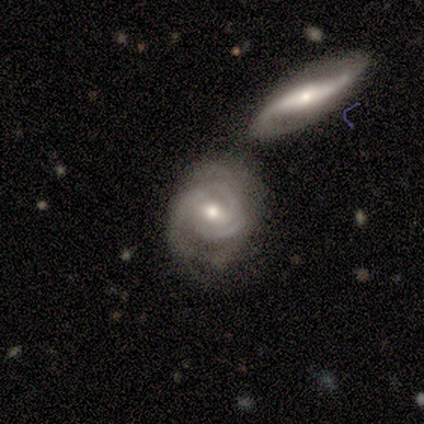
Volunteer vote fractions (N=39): Morphology: type=featured or disk (85%); edge-on=no (85%); bar=no (61%); spiral arms=yes (96%); winding=tight (67%); arm count=2 (37%, tied with can't tell); bulge=moderate (61%); merging=merger (35%).